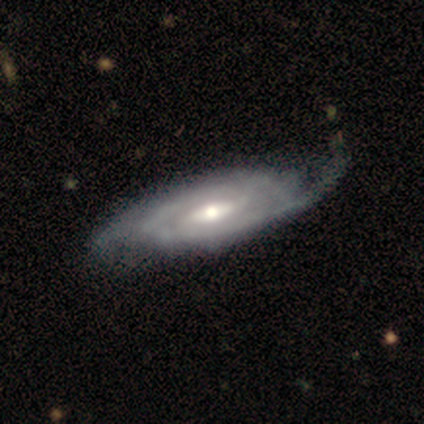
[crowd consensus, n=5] Volunteers were most divided on "merging": none: 60%, major disturbance: 40%, minor disturbance: 0%, merger: 0%. More confident: edge-on disk — no (100%); spiral arms — yes (100%); smooth or featured — featured or disk (80%); spiral winding — tight (75%); bulge size — moderate (75%); bar — weak (50%); spiral arm count — 2 (50%).